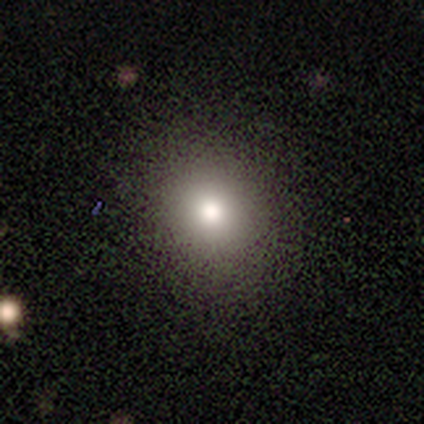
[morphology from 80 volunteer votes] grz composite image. It shows a smooth galaxy with no disk features (81%) that is round (78%). Merging: none (48%).